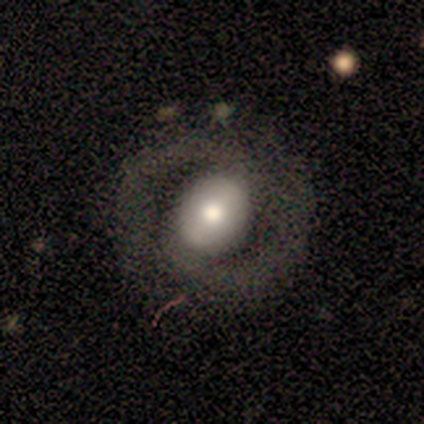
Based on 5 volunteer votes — featured or disk 80%, smooth 20%, star or artifact 0%. Down the decision tree: edge-on disk — no (100%); bar — weak (75%); spiral arms — yes (100%); spiral arm count — 2 (75%); spiral winding — medium (50%); bulge size — moderate (50%); merging — none (80%).